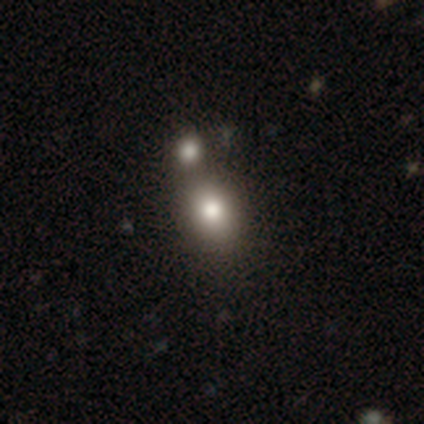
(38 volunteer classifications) smooth 84%, star or artifact 11%, featured or disk 5%. Down the decision tree: how rounded — in between (50%); merging — merger (53%).